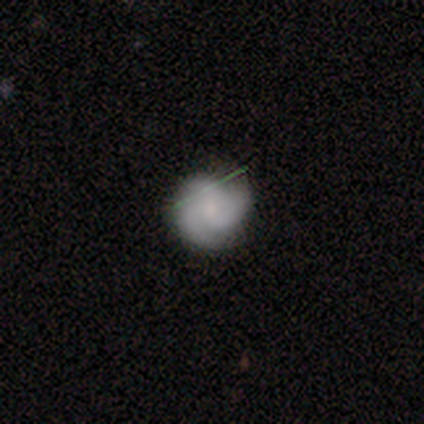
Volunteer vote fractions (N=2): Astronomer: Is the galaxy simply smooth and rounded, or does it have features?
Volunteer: featured or disk — 100%.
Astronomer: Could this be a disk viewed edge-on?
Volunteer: no — 100%.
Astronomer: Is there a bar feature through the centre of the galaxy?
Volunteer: weak — 50%, tied with no at 50%.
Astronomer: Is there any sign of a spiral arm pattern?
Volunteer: yes — 100%.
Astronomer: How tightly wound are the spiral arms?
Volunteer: tight — 50%, tied with medium at 50%.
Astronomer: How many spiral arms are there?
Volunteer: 3 — 100%.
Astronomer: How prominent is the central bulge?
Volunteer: moderate — 50%, tied with none at 50%.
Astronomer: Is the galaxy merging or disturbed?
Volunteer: none — 100%.